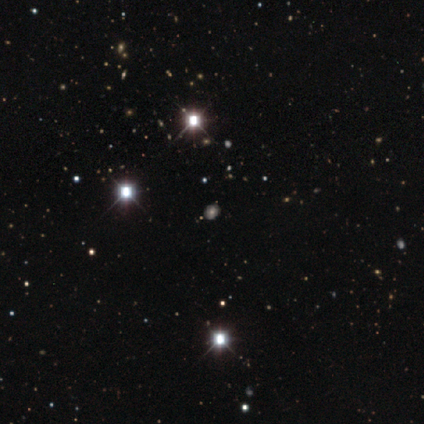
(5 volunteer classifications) Volunteers were most divided on "smooth or featured": star or artifact: 60%, smooth: 20%, featured or disk: 20%.